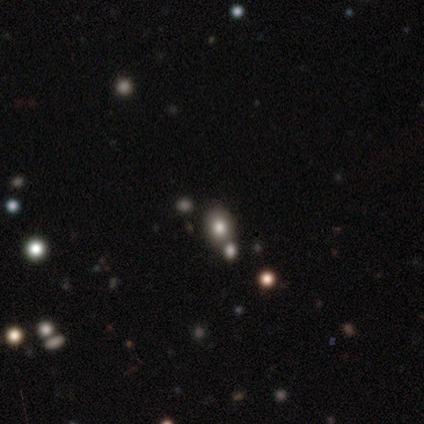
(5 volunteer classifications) smooth 80%, star or artifact 20%, featured or disk 0%. Down the decision tree: how rounded — round (50%, tied with in between); merging — none (50%).